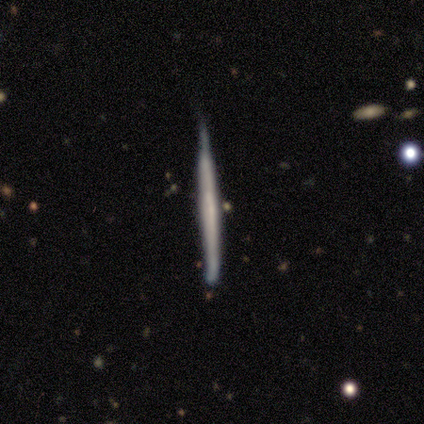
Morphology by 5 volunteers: This is likely a smooth galaxy (60%). How rounded: likely cigar-shaped (67%). Merging: likely none (60%).